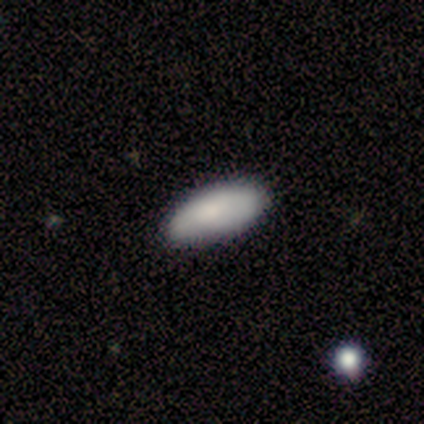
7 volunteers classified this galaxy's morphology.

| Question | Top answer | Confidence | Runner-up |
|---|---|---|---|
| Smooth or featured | smooth | 100% | — |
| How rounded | in between | 100% | — |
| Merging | none | 71% | minor disturbance (29%) |